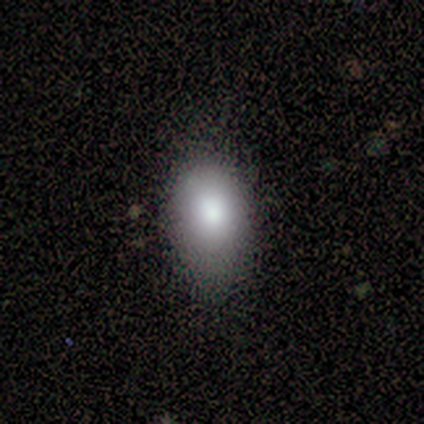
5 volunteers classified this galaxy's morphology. This appears to be a smooth galaxy with no disk features (80%) that is in between round and cigar-shaped (100%). Merging: none (50%, tied with minor disturbance).